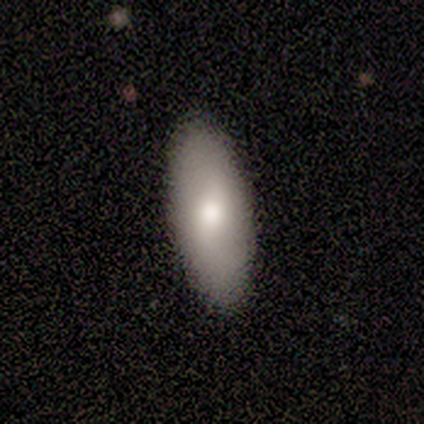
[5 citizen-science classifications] Volunteers were most divided on "smooth or featured": smooth: 80%, featured or disk: 20%, star or artifact: 0%. More confident: how rounded — in between (100%); merging — none (100%).